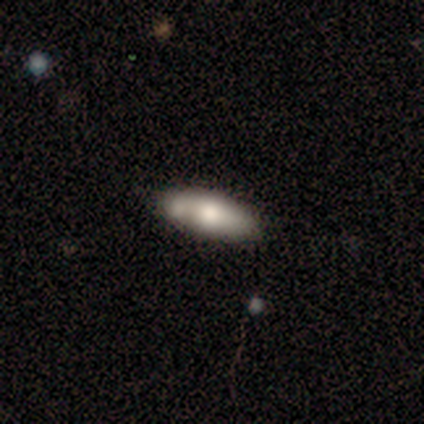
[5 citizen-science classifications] Smooth or featured?
  - smooth: 80% *
  - featured or disk: 20%
  - star or artifact: 0%
How rounded?
  - in between: 100% *
  - round: 0%
  - cigar-shaped: 0%
Merging?
  - none: 80% *
  - minor disturbance: 20%
  - major disturbance: 0%
  - merger: 0%